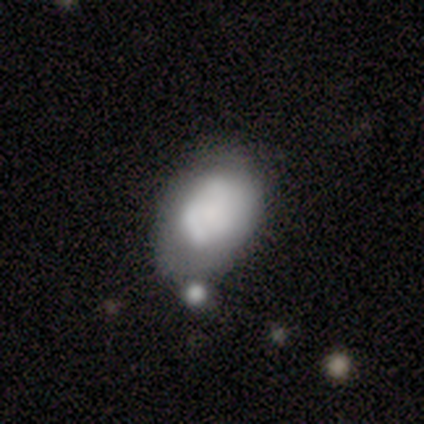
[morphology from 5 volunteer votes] smooth 40% (tied), featured or disk 40% (tied), star or artifact 20%. Down the decision tree: how rounded — in between (100%); merging — merger (50%).